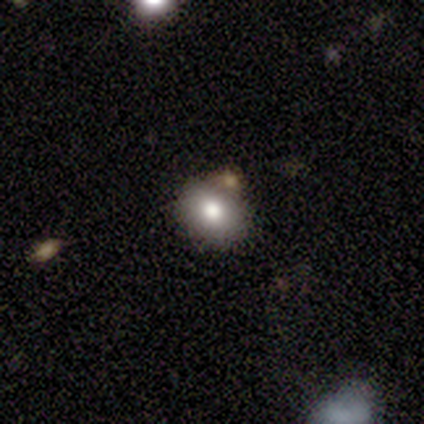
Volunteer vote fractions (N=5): Morphology: type=smooth (80%); roundness=in between (100%); merging=minor disturbance (50%).